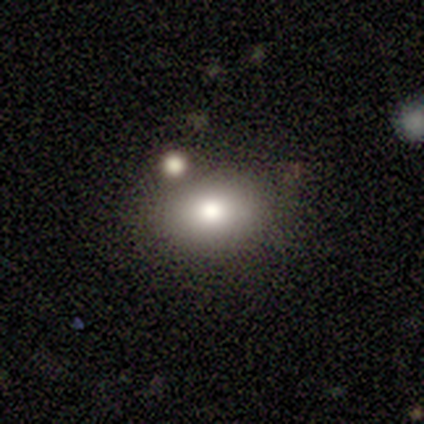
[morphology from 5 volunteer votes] smooth_or_featured: smooth (p=0.80) [alt: featured or disk p=0.20]
how_rounded: round (p=0.50) [tied with: in between p=0.50]
merging: none (p=0.60) [alt: minor disturbance p=0.20]